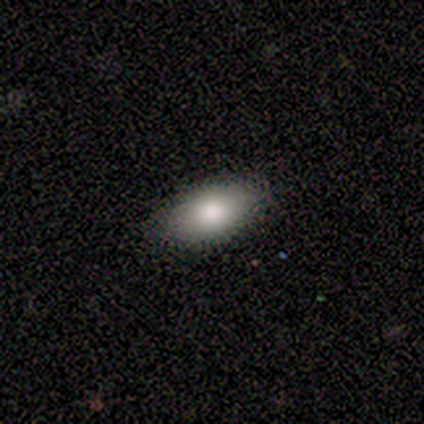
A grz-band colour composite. It shows a smooth galaxy with no disk features (100%) that is in between round and cigar-shaped (100%). Merging: none (100%).